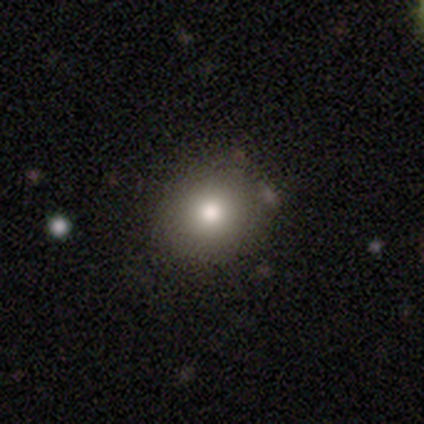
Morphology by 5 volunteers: smooth_or_featured: smooth (p=1.00)
how_rounded: round (p=0.60) [alt: in between p=0.40]
merging: none (p=0.80) [alt: minor disturbance p=0.20]